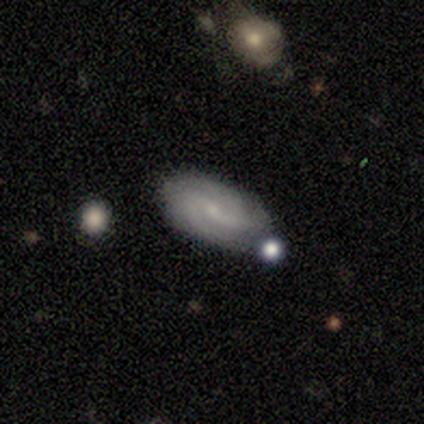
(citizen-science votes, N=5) Volunteers were most divided on "bar" (3-way tie): strong: 33%, weak: 33%, no: 33%; "merging" (2-way tie): none: 40%, minor disturbance: 40%, merger: 20%, major disturbance: 0%. More confident: edge-on disk — no (100%); spiral arms — yes (100%); spiral winding — tight (100%); bulge size — small (100%); spiral arm count — 2 (67%); smooth or featured — featured or disk (60%).